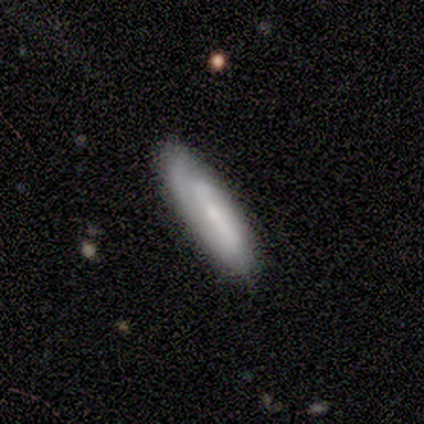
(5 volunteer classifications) Smooth or featured? 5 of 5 (100%) said featured or disk. Edge-on disk? 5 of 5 (100%) said no. Bar? 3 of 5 (60%) said weak. Spiral arms? 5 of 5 (100%) said yes. Spiral winding? 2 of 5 (40%, tied with medium) said tight. Spiral arm count? 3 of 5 (60%) said 2. Bulge size? 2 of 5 (40%, tied with none) said moderate. Merging? 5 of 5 (100%) said none.